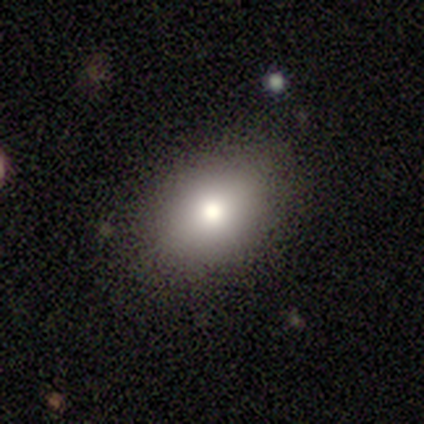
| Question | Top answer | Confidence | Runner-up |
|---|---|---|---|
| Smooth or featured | smooth | 80% | star or artifact (20%) |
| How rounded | in between | 100% | — |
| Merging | none | 50% | tied: minor disturbance (50%) |